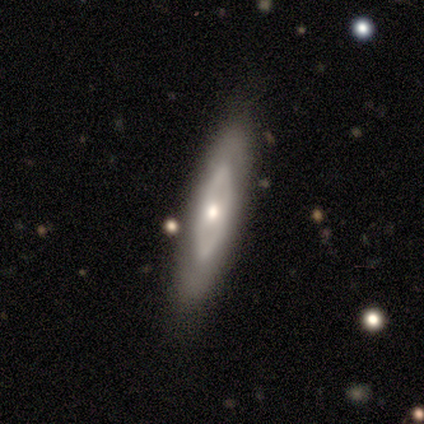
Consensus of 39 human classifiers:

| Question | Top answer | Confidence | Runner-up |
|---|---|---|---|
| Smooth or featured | featured or disk | 64% | smooth (33%) |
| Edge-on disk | no | 68% | yes (32%) |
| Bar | no | 94% | strong (6%) |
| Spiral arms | no | 71% | yes (29%) |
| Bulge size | small | 65% | moderate (35%) |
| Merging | none | 71% | minor disturbance (24%) |